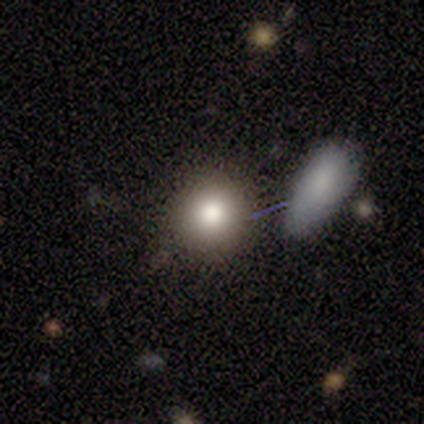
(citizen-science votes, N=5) Smooth or featured?
  - smooth: 80% *
  - featured or disk: 20%
  - star or artifact: 0%
How rounded?
  - round: 100% *
  - in between: 0%
  - cigar-shaped: 0%
Merging?
  - minor disturbance: 60% *
  - none: 20%
  - merger: 20%
  - major disturbance: 0%